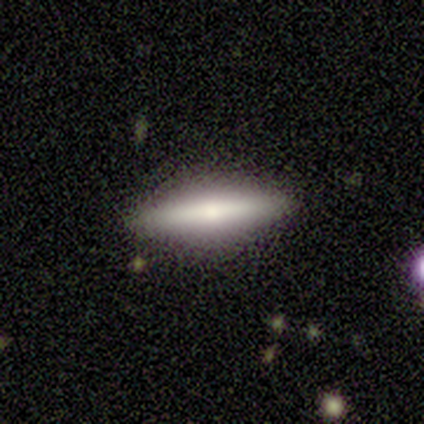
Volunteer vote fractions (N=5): smooth_or_featured: featured or disk (p=0.60) [alt: smooth p=0.40]
disk_edge_on: yes (p=1.00)
edge_on_bulge: rounded (p=1.00)
merging: none (p=1.00)